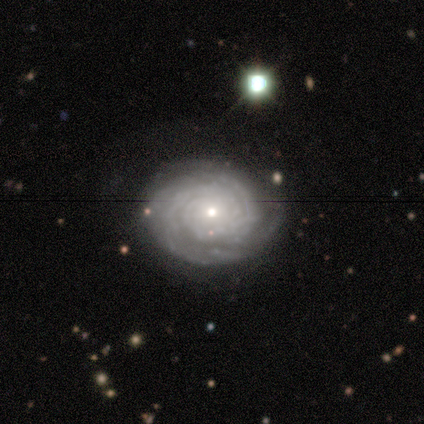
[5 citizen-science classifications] Smooth or featured: featured or disk — 80% (star or artifact — 20%)
Edge-on disk: no — 100%
Bar: no — 100%
Spiral arms: yes — 100%
Spiral winding: tight — 75% (medium — 25%)
Spiral arm count: can't tell — 50% (2 — 25%)
Bulge size: small — 100%
Merging: none — 100%